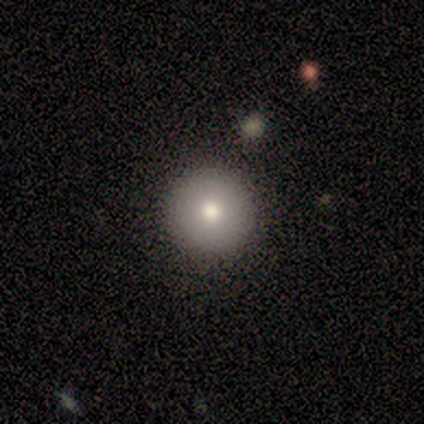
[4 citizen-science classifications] Morphology: type=smooth (100%); roundness=round (75%); merging=none (100%).